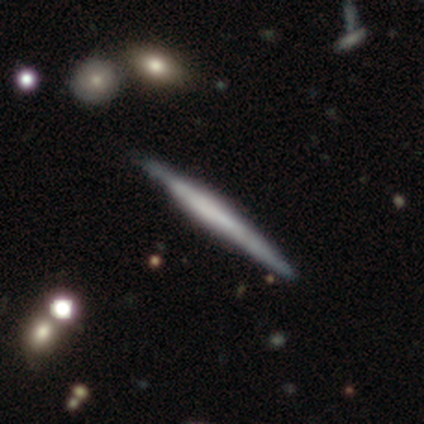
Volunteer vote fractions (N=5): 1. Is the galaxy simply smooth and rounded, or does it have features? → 80% featured or disk, 20% smooth, 0% star or artifact.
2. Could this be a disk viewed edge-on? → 75% yes, 25% no.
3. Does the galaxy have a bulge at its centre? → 67% none, 33% boxy, 0% rounded.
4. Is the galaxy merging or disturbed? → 40% none (tied), 40% minor disturbance (tied), 20% merger, 0% major disturbance.